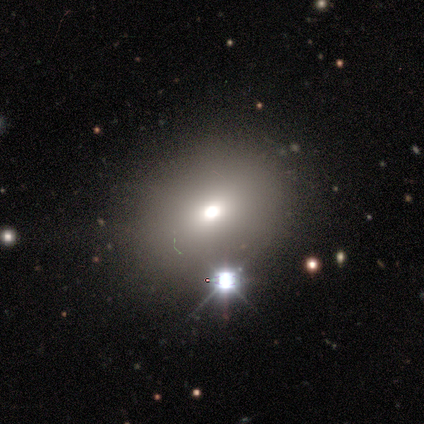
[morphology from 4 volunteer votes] A smooth galaxy with no disk features (75%) that is in between round and cigar-shaped (67%). Merging: none (100%).